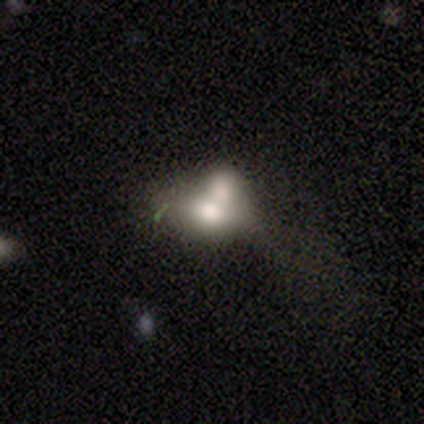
Smooth or featured: smooth — 100%
How rounded: in between — 75% (cigar-shaped — 25%)
Merging: minor disturbance — 50% (tied with merger — 50%)